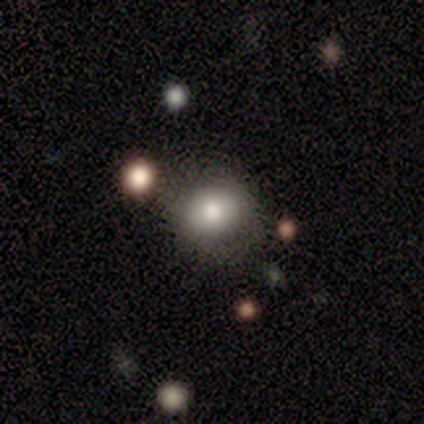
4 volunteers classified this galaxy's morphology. Volunteers were most divided on "how rounded": round: 67%, in between: 33%, cigar-shaped: 0%. More confident: smooth or featured — smooth (75%); merging — none (67%).